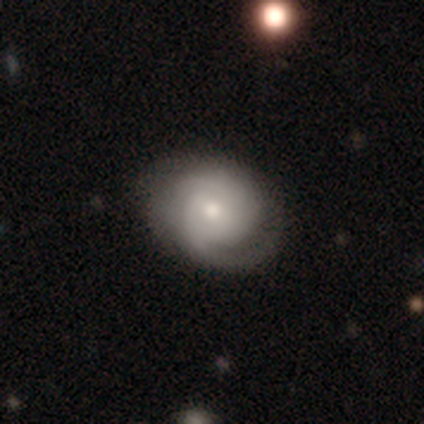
Q: Smooth or featured?
A: featured or disk (82%); runner-up: smooth (15%)
Q: Edge-on disk?
A: no (97%); runner-up: yes (3%)
Q: Bar?
A: no (55%); runner-up: weak (35%)
Q: Spiral arms?
A: yes (90%); runner-up: no (10%)
Q: Spiral winding?
A: tight (54%); runner-up: medium (29%)
Q: Spiral arm count?
A: 2 (54%); runner-up: can't tell (18%)
Q: Bulge size?
A: moderate (48%); runner-up: small (35%)
Q: Merging?
A: none (66%); runner-up: major disturbance (18%)